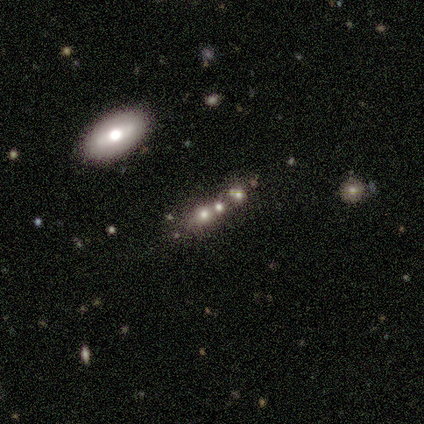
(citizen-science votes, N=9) Smooth or featured: smooth — 56% (featured or disk — 33%)
How rounded: round — 40% (tied with in between — 40%)
Merging: none — 88% (minor disturbance — 12%)